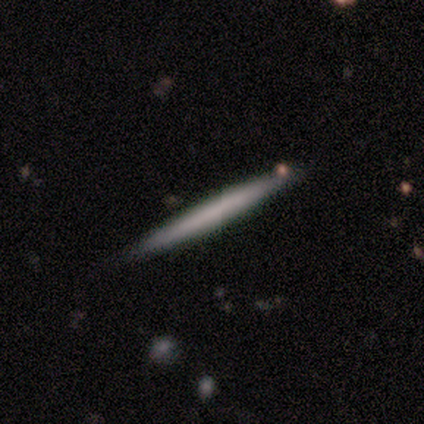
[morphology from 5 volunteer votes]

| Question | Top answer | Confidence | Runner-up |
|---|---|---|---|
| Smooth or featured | smooth | 80% | featured or disk (20%) |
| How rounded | cigar-shaped | 100% | — |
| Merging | none | 80% | minor disturbance (20%) |